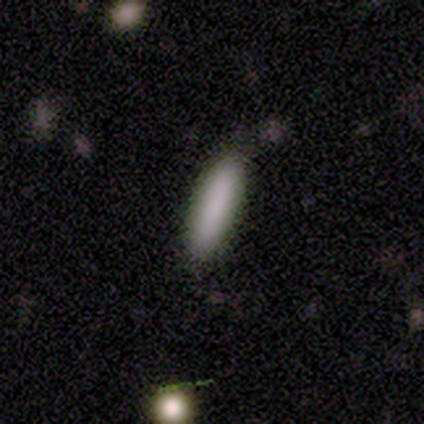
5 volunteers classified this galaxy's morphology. Smooth or featured?
  - smooth: 80% *
  - star or artifact: 20%
  - featured or disk: 0%
How rounded?
  - cigar-shaped: 75% *
  - in between: 25%
  - round: 0%
Merging?
  - none: 75% *
  - major disturbance: 25%
  - minor disturbance: 0%
  - merger: 0%